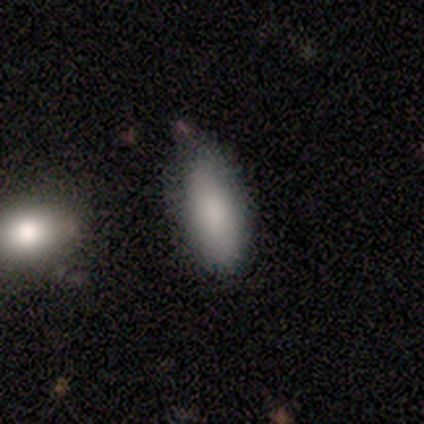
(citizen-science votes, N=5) Q: Smooth or featured?
A: smooth (60%); runner-up: featured or disk (20%)
Q: How rounded?
A: in between (67%); runner-up: cigar-shaped (33%)
Q: Merging?
A: none (50%); tied with: minor disturbance (50%)